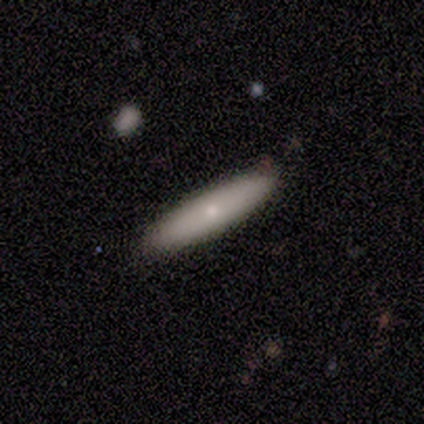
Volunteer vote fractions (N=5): This is likely a featured or disk galaxy (60%). It is clearly viewed edge-on (100%). Edge-on bulge: likely none (67%). Merging: clearly none (100%).